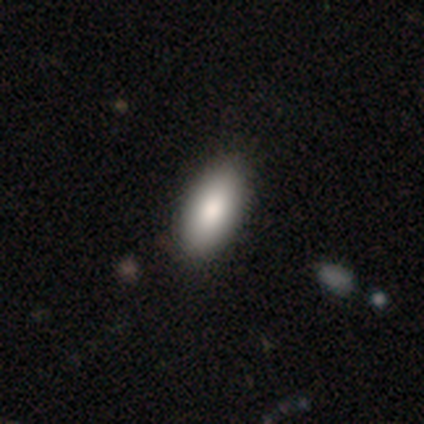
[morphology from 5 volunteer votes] Volunteers were most divided on "smooth or featured": smooth: 80%, featured or disk: 20%, star or artifact: 0%. More confident: how rounded — in between (100%); merging — none (80%).